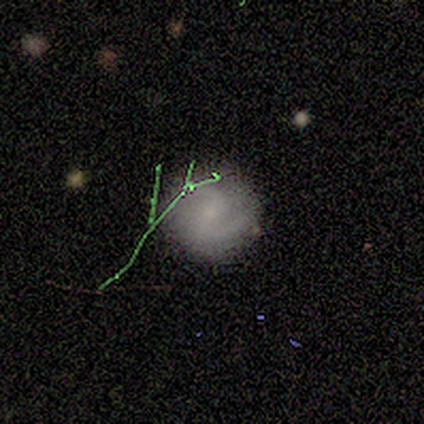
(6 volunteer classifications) A smooth galaxy with no disk features (33%, tied with featured or disk and star or artifact) that is round (100%).

Vote fractions:
- Smooth or featured? smooth: 33% (tied) / featured or disk: 33% (tied) / star or artifact: 33% (tied)
- How rounded? round: 100% / in between: 0% / cigar-shaped: 0%
- Merging? none: 100% / minor disturbance: 0% / major disturbance: 0% / merger: 0%